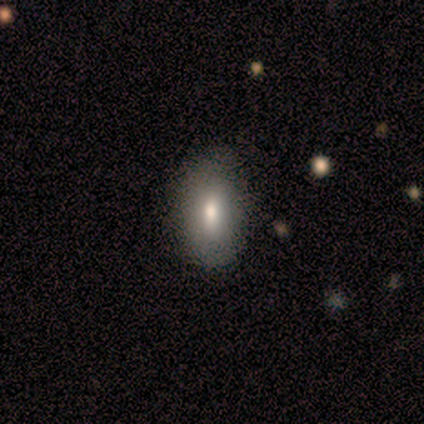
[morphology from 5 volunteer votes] Overall: smooth (100%). How rounded: in between (80%). Merging: none (100%).